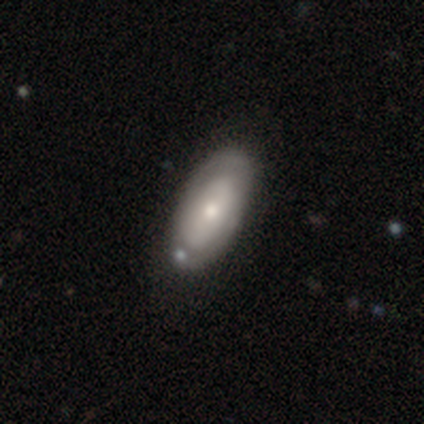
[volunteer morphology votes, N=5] A smooth galaxy with no disk features (40%, tied with featured or disk) that is in between round and cigar-shaped (100%). Merging: none (75%).